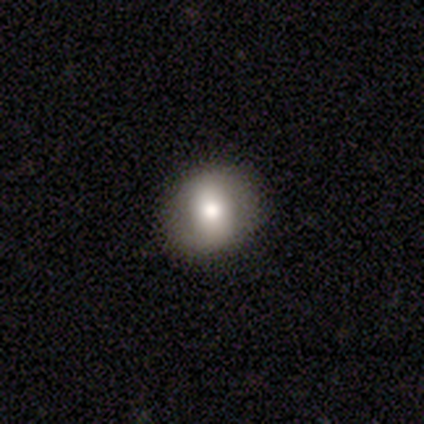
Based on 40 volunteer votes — Smooth or featured? 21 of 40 (52%) said smooth. How rounded? 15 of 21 (71%) said round. Merging? 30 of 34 (88%) said none.